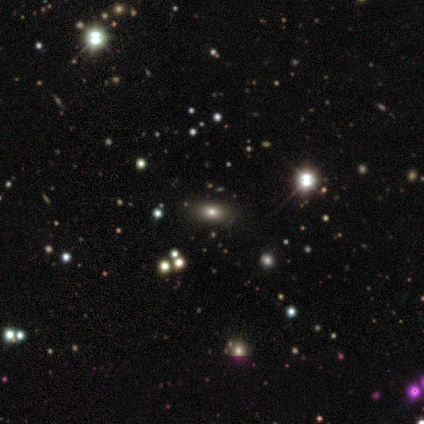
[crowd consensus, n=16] Overall: smooth (56%; star or artifact 25%). How rounded: in between (89%). Merging: none (100%).